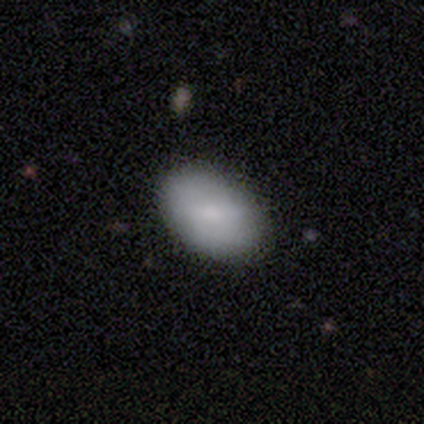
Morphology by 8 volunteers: Smooth or featured? 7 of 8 (88%) said smooth. How rounded? 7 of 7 (100%) said in between. Merging? 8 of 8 (100%) said none.